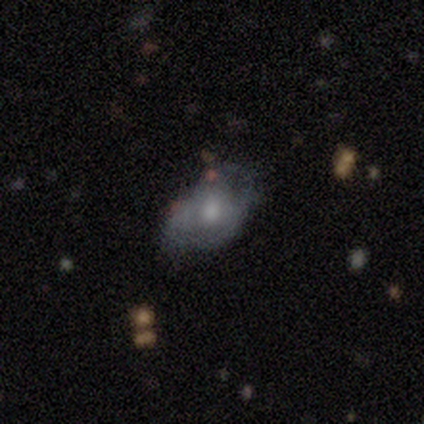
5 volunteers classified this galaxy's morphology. smooth_or_featured: featured or disk (p=0.60) [alt: smooth p=0.40]
disk_edge_on: no (p=1.00)
bar: no (p=1.00)
has_spiral_arms: yes (p=1.00)
spiral_winding: tight (p=0.67) [alt: medium p=0.33]
spiral_arm_count: 2 (p=0.67) [alt: can't tell p=0.33]
bulge_size: moderate (p=1.00)
merging: none (p=0.60) [alt: minor disturbance p=0.40]